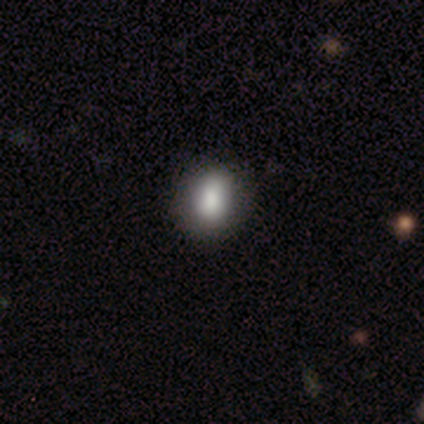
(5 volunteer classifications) A smooth galaxy with no disk features (100%) that is in between round and cigar-shaped (60%). Merging: none (80%).